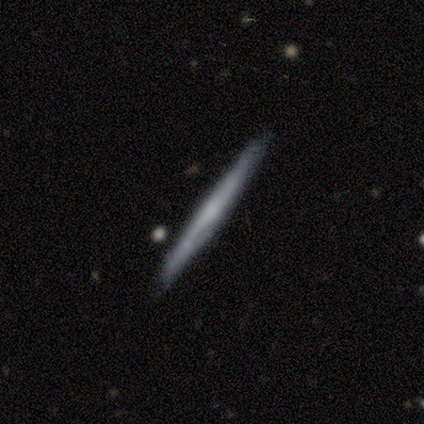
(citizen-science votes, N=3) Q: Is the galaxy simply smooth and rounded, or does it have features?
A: smooth — 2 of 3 (67%).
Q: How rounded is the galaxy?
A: cigar-shaped — 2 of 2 (100%).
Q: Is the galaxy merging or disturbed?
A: none — 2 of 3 (67%).